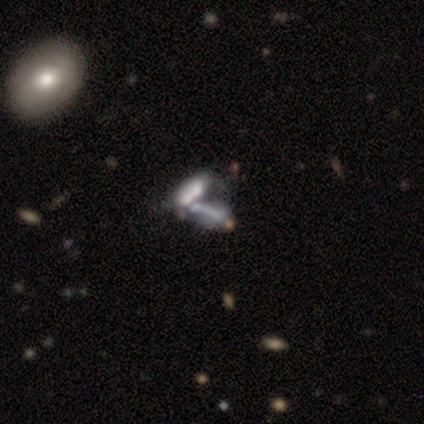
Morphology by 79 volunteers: Volunteers were most divided on "smooth or featured": featured or disk: 51%, smooth: 37%, star or artifact: 13%. More confident: spiral arms — no (94%); edge-on disk — no (85%); merging — merger (71%); bar — no (71%); bulge size — none (68%).